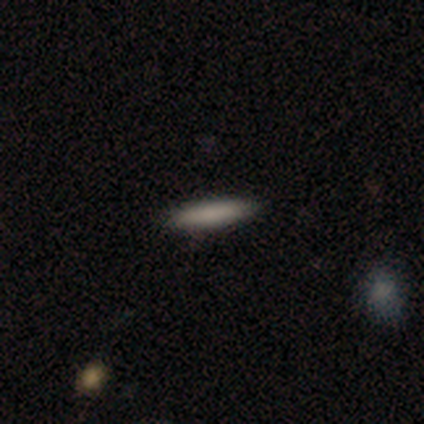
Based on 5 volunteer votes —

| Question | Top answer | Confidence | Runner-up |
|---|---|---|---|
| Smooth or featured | smooth | 100% | — |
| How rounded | cigar-shaped | 80% | in between (20%) |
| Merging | none | 100% | — |